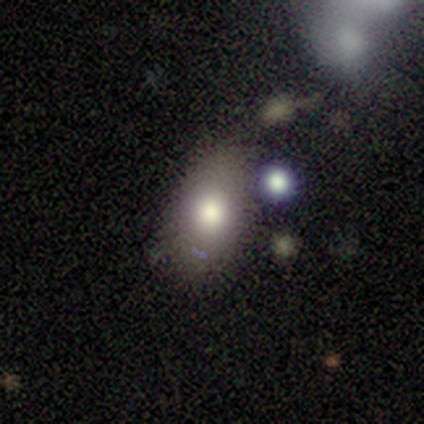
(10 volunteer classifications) smooth 70%, featured or disk 30%, star or artifact 0%. Down the decision tree: how rounded — in between (86%); merging — none (50%).